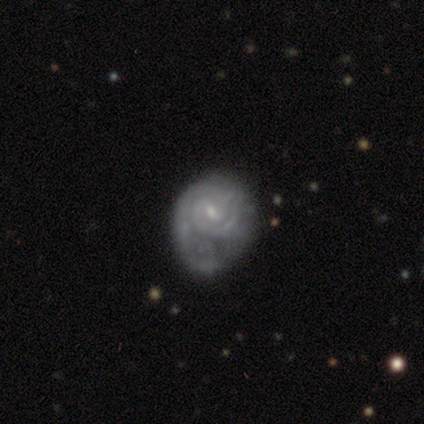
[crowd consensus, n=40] This is clearly a featured or disk galaxy (98%). It is clearly not viewed edge-on (100%). Bar: possibly no (56%). Spiral arm pattern: clearly yes (82%). Spiral arm count: likely 2 (62%). Spiral winding: likely tight (75%). Central bulge: likely small (64%). Merging: possibly major disturbance (52%).